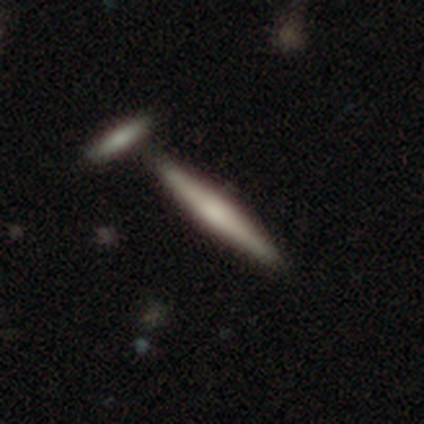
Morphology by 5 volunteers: Smooth or featured? 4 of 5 (80%) said featured or disk. Edge-on disk? 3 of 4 (75%) said yes. Edge-on bulge? 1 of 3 (33%, tied with none and rounded) said boxy. Merging? 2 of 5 (40%, tied with merger) said none.